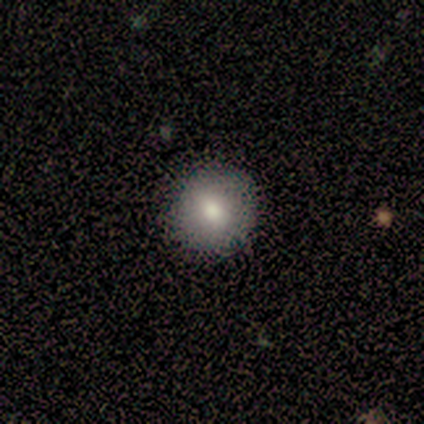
Smooth or featured? smooth (100%)
How rounded? round (100%)
Merging? none (100%)